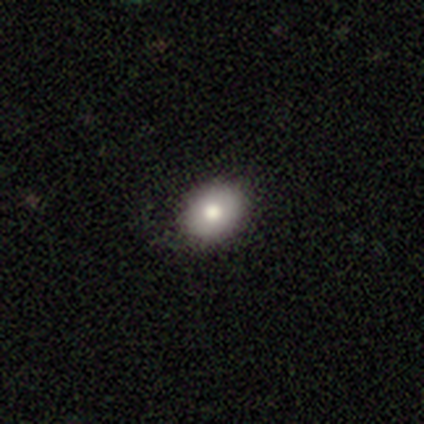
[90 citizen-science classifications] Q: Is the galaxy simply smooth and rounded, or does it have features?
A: smooth — 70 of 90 (78%).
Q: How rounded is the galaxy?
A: in between — 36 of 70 (51%).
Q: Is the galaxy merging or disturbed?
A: none — 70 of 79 (89%).